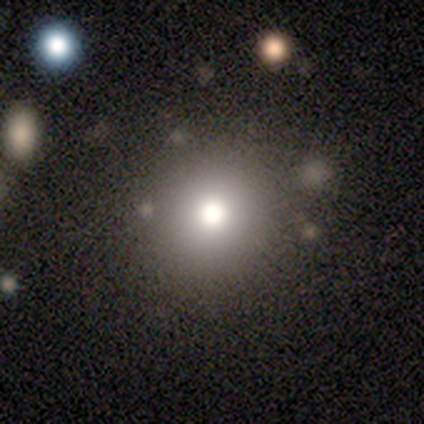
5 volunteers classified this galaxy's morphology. This appears to be a smooth galaxy with no disk features (60%) that is round (67%). Merging: none (75%).